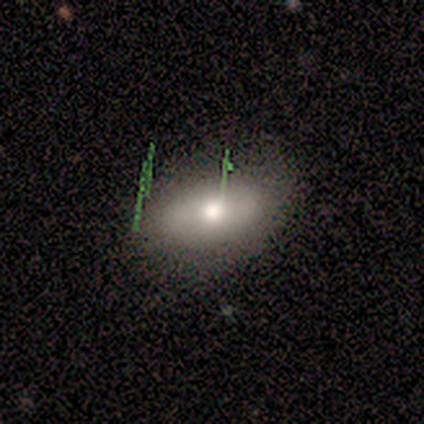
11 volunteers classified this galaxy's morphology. A smooth galaxy with no disk features (100%) that is in between round and cigar-shaped (100%). Merging: none (91%).